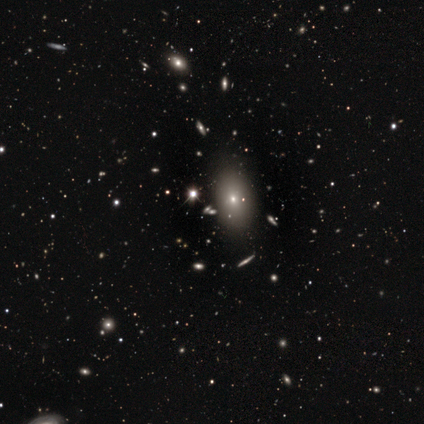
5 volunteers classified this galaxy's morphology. Q: Smooth or featured?
A: smooth (80%); runner-up: star or artifact (20%)
Q: How rounded?
A: in between (75%); runner-up: cigar-shaped (25%)
Q: Merging?
A: none (100%)